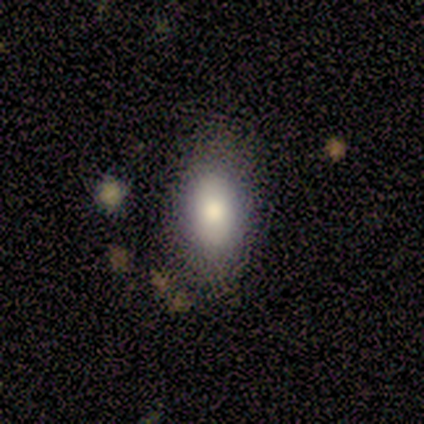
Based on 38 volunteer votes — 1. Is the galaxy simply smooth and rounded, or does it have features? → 71% smooth, 16% featured or disk, 13% star or artifact.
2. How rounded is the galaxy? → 89% in between, 7% cigar-shaped, 4% round.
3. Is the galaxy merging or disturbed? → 67% none, 15% minor disturbance, 15% major disturbance, 3% merger.